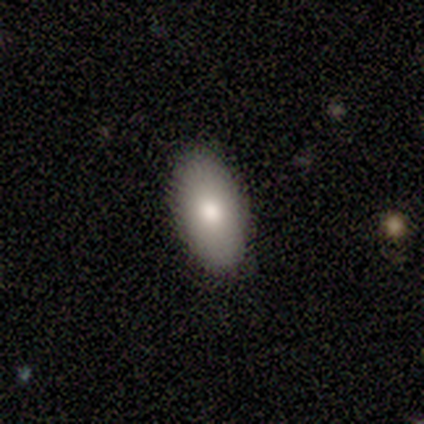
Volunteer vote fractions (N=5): Morphology: type=smooth (40%, tied with featured or disk); roundness=in between (100%); merging=none (100%).